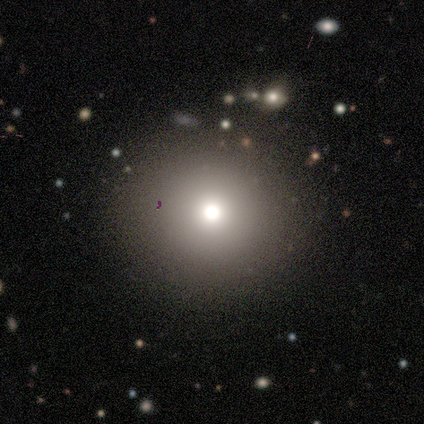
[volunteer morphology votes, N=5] Smooth or featured: smooth — 80% (featured or disk — 20%)
How rounded: round — 100%
Merging: none — 100%